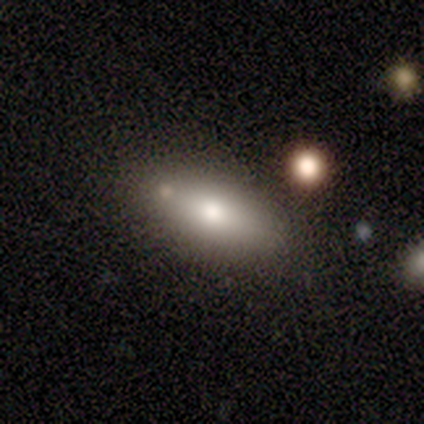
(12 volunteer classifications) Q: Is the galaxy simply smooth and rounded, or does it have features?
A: smooth — 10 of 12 (83%).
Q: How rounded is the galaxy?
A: in between — 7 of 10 (70%).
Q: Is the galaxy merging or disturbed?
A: none — 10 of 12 (83%).